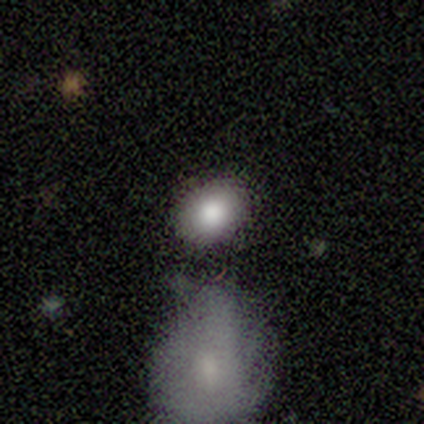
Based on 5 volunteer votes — A smooth galaxy with no disk features (80%) that is in between round and cigar-shaped (100%).

Vote fractions:
- Smooth or featured? smooth: 80% / star or artifact: 20% / featured or disk: 0%
- How rounded? in between: 100% / round: 0% / cigar-shaped: 0%
- Merging? none: 100% / minor disturbance: 0% / major disturbance: 0% / merger: 0%